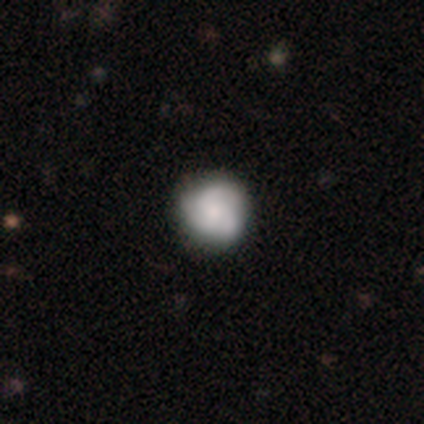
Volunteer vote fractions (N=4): Q: Smooth or featured?
A: featured or disk (100%)
Q: Edge-on disk?
A: no (100%)
Q: Bar?
A: no (100%)
Q: Spiral arms?
A: yes (100%)
Q: Spiral winding?
A: medium (75%); runner-up: tight (25%)
Q: Spiral arm count?
A: 3 (100%)
Q: Bulge size?
A: moderate (50%); runner-up: large (25%)
Q: Merging?
A: none (100%)